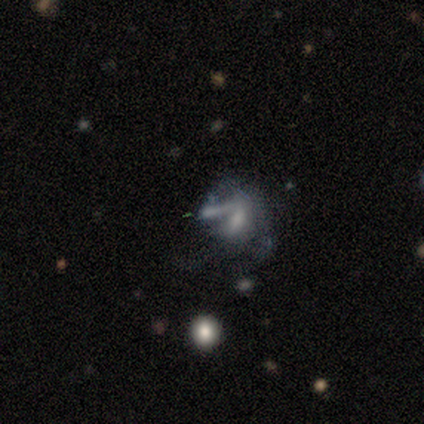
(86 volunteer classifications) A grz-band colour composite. It shows a featured or disk galaxy (67%) with no bar (78%), no spiral arms (83%) and a small central bulge (43%). Merging: major disturbance (39%).